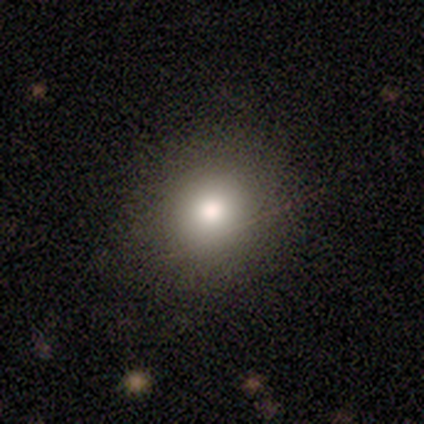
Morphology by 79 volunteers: Smooth or featured? smooth (75%)
How rounded? round (86%)
Merging? none (83%)